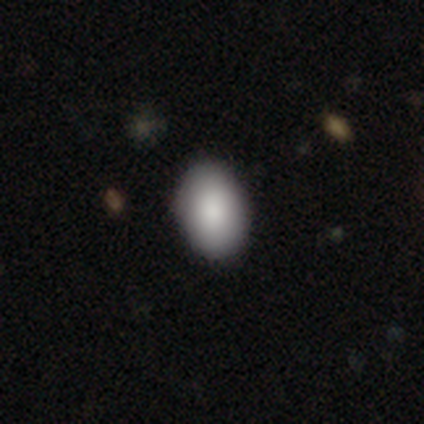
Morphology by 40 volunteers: This is clearly a smooth galaxy (90%). How rounded: likely in between (75%). Merging: likely none (67%).